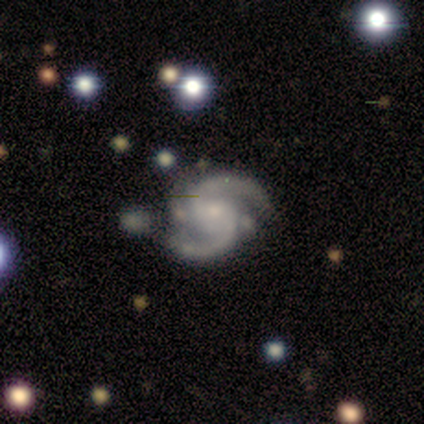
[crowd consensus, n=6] Overall: featured or disk (83%). Edge-on disk: no (100%). Bar: no (80%). Spiral arms: yes (100%). Spiral arm count: 2 (100%). Spiral winding: medium (60%; tight 40%). Bulge size: moderate (60%; small 20%). Merging: none (50%; merger 33%).